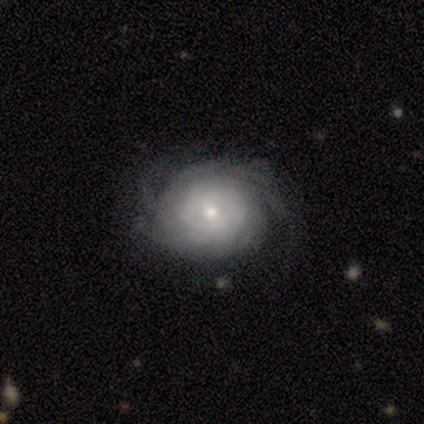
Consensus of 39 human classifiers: smooth-or-featured: featured or disk: 87% | star or artifact: 8% | smooth: 5%
  disk-edge-on: no: 100% | yes: 0%
    bar: no: 59% | weak: 38% | strong: 3%
    has-spiral-arms: yes: 88% | no: 12%
      spiral-winding: tight: 83% | medium: 17% | loose: 0%
      spiral-arm-count: can't tell: 60% | 4: 17% | 2: 13% | 3: 7% | more than 4: 3% | 1: 0%
    bulge-size: small: 47% | moderate: 41% | large: 6% | dominant: 3% | none: 3%
  merging: none: 42% | minor disturbance: 11% | major disturbance: 6% | merger: 0%